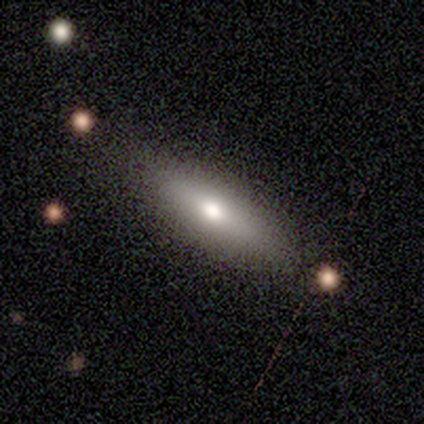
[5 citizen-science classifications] Smooth or featured? smooth (100%)
How rounded? cigar-shaped (60%)
Merging? none (80%)